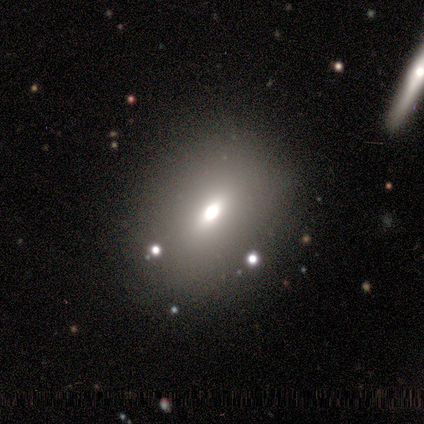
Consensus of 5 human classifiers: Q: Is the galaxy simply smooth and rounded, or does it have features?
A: smooth — 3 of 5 (60%).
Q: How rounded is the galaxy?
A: in between — 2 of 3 (67%).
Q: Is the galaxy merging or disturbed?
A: none — 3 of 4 (75%).